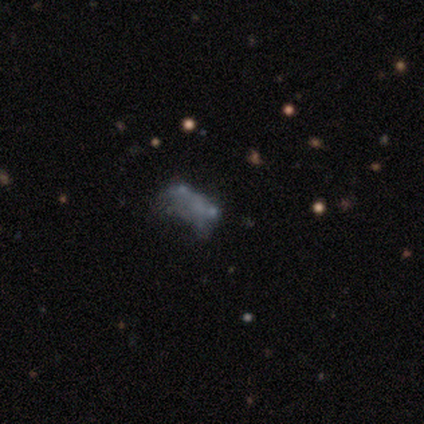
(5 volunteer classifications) Morphology: type=smooth (80%); roundness=in between (75%); merging=none (50%, tied with minor disturbance).